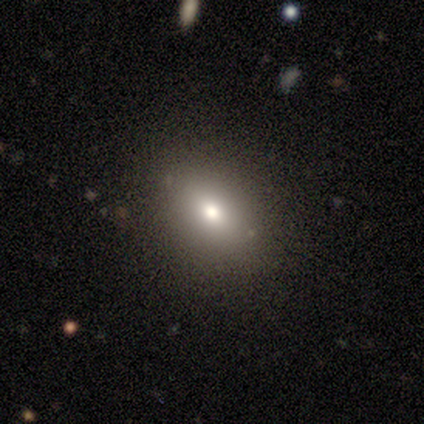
smooth_or_featured: smooth (p=0.75) [alt: featured or disk p=0.15]
how_rounded: in between (p=0.63) [alt: round p=0.37]
merging: none (p=0.86) [alt: minor disturbance p=0.11]